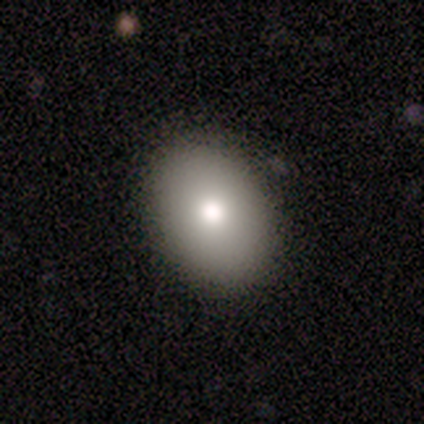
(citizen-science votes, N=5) Volunteers were most divided on "smooth or featured": smooth: 60%, featured or disk: 40%, star or artifact: 0%. More confident: how rounded — in between (100%); merging — none (100%).